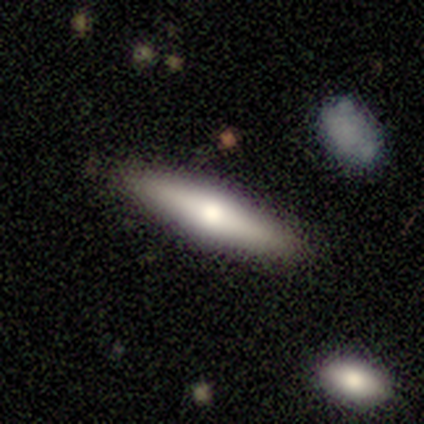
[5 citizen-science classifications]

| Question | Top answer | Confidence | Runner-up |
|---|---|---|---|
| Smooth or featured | smooth | 80% | featured or disk (20%) |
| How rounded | in between | 50% | tied: cigar-shaped (50%) |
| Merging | none | 100% | — |